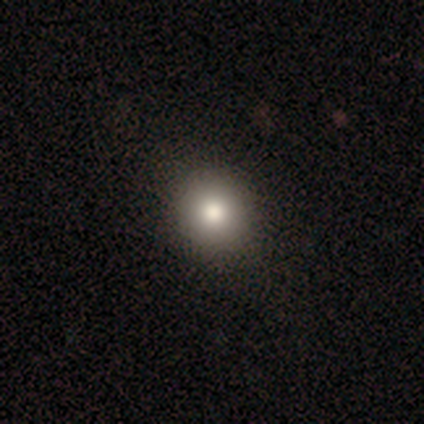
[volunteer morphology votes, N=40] Overall: smooth (88%). How rounded: round (91%). Merging: none (70%).